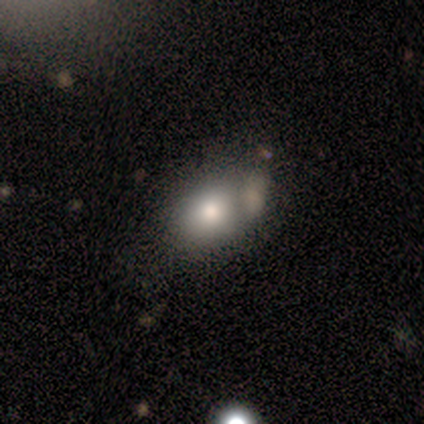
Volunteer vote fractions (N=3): Smooth or featured?
  - smooth: 67% *
  - featured or disk: 33%
  - star or artifact: 0%
How rounded?
  - round: 50% * (tied)
  - in between: 50% * (tied)
  - cigar-shaped: 0%
Merging?
  - minor disturbance: 100% *
  - none: 0%
  - major disturbance: 0%
  - merger: 0%